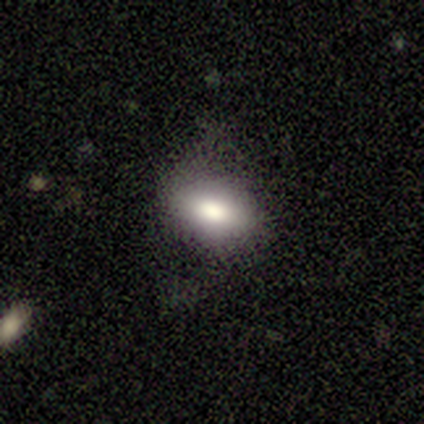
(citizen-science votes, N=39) Overall: smooth (77%). How rounded: in between (83%). Merging: none (60%; minor disturbance 23%).